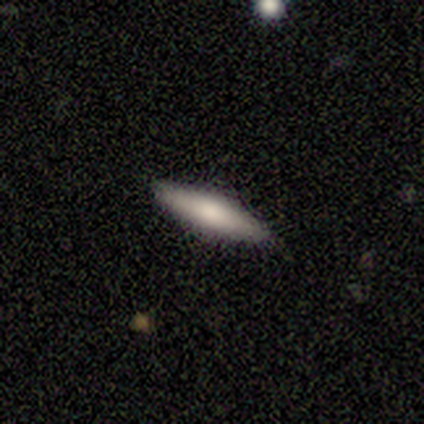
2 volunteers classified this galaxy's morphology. Q: Smooth or featured?
A: smooth (100%)
Q: How rounded?
A: cigar-shaped (100%)
Q: Merging?
A: none (100%)